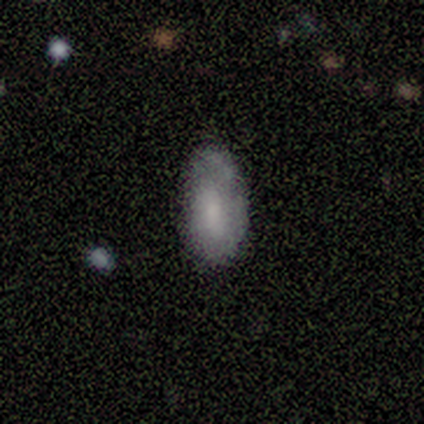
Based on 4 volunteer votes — featured or disk 75%, smooth 25%, star or artifact 0%. Down the decision tree: edge-on disk — no (67%); bar — weak (50%, tied with no); spiral arms — yes (50%, tied with no); spiral arm count — 1 (100%); spiral winding — tight (100%); bulge size — moderate (50%, tied with small); merging — minor disturbance (75%).